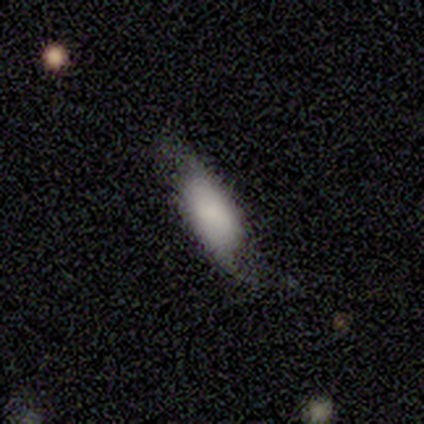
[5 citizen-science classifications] Morphology: type=smooth (80%); roundness=in between (100%); merging=none (40%, tied with minor disturbance).